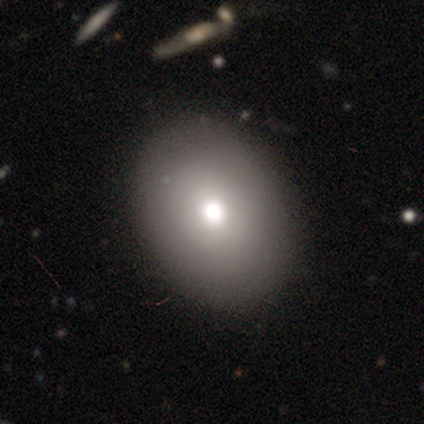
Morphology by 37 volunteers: This is likely a smooth galaxy (73%). How rounded: likely in between (78%). Merging: likely none (69%).